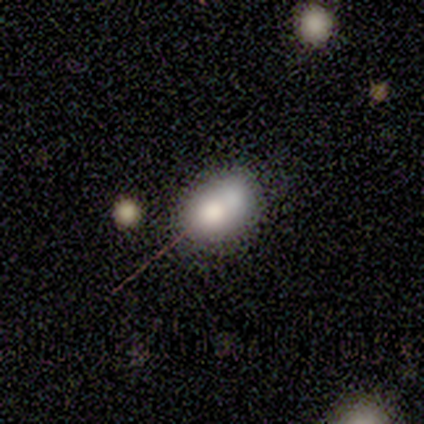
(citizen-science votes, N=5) A smooth galaxy with no disk features (40%, tied with star or artifact) that is round (50%, tied with in between).

Vote fractions:
- Smooth or featured? smooth: 40% (tied) / star or artifact: 40% (tied) / featured or disk: 20%
- How rounded? round: 50% (tied) / in between: 50% (tied) / cigar-shaped: 0%
- Merging? merger: 100% / none: 0% / minor disturbance: 0% / major disturbance: 0%